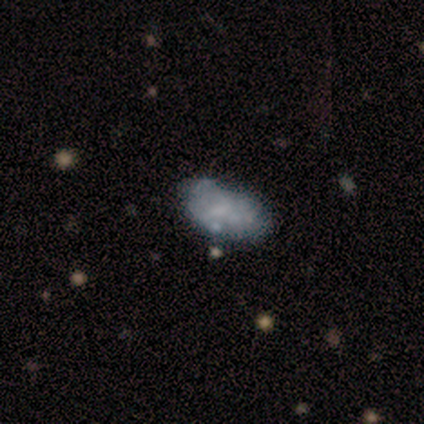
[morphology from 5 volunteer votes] Smooth or featured? 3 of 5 (60%) said smooth. How rounded? 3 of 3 (100%) said in between. Merging? 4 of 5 (80%) said minor disturbance.